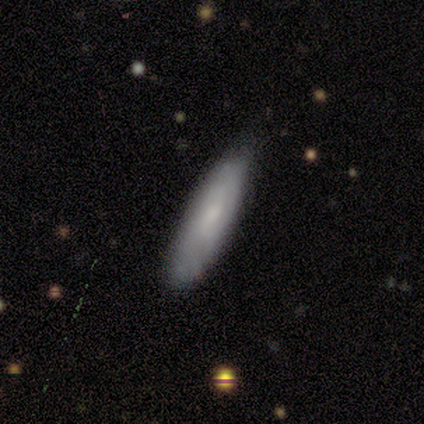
Overall: smooth (80%). How rounded: in between (50%, tied with cigar-shaped). Merging: none (60%; minor disturbance 40%).